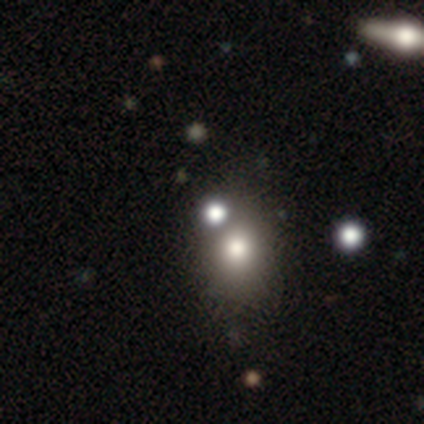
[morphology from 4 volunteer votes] Smooth or featured?
  - smooth: 50% *
  - featured or disk: 25%
  - star or artifact: 25%
How rounded?
  - round: 100% *
  - in between: 0%
  - cigar-shaped: 0%
Merging?
  - none: 100% *
  - minor disturbance: 0%
  - major disturbance: 0%
  - merger: 0%